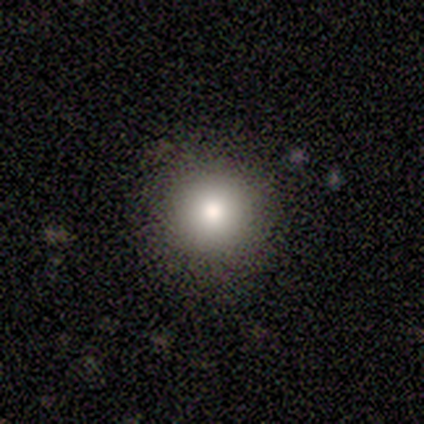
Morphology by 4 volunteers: This appears to be a smooth galaxy with no disk features (50%, tied with featured or disk) that is round (100%). Merging: none (100%).